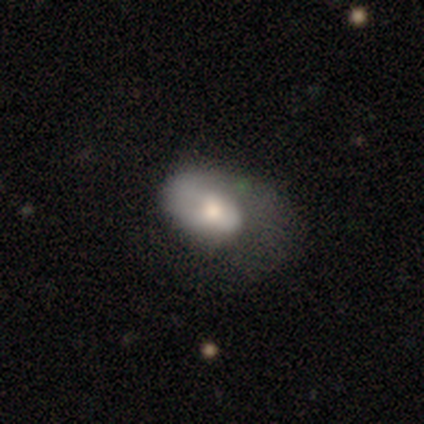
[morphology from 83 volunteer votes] type=smooth (55%); roundness=in between (96%); merging=major disturbance (44%).